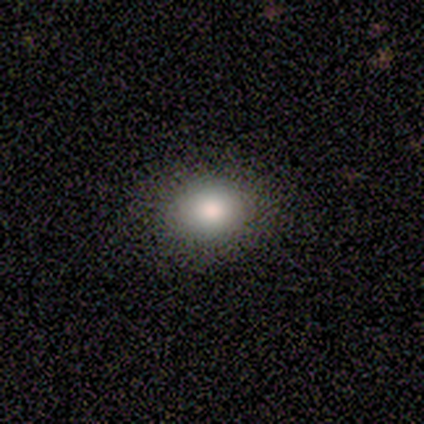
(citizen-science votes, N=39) Overall: smooth (79%). How rounded: round (61%; in between 39%). Merging: none (77%).